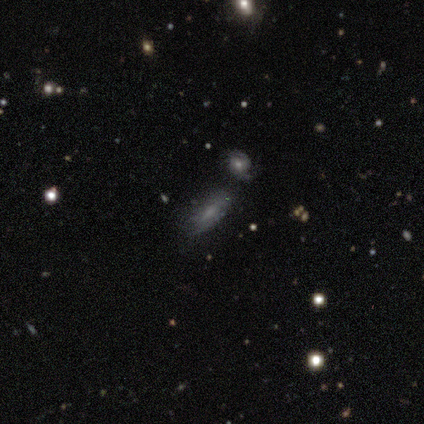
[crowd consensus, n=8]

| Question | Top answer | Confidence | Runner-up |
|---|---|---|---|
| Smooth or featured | smooth | 62% | star or artifact (25%) |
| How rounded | in between | 80% | cigar-shaped (20%) |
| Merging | none | 83% | minor disturbance (17%) |